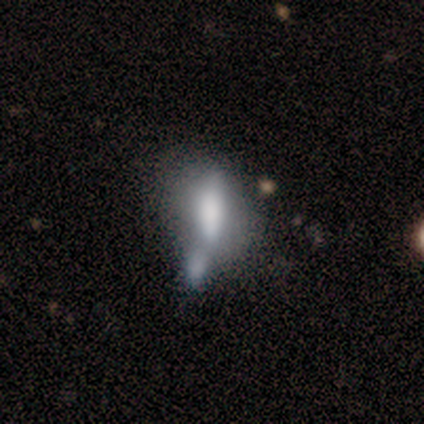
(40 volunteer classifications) Volunteers were most divided on "smooth or featured": smooth: 57%, featured or disk: 38%, star or artifact: 5%. More confident: how rounded — in between (65%); merging — merger (63%).